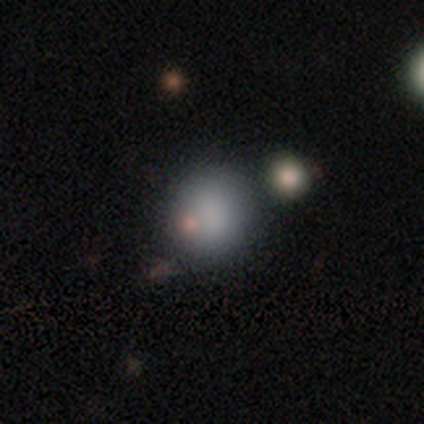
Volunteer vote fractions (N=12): Morphology: type=smooth (83%); roundness=round (90%); merging=none (70%).